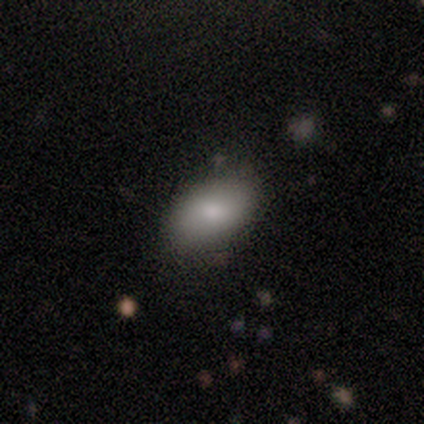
Smooth or featured? smooth (100%)
How rounded? in between (100%)
Merging? none (100%)